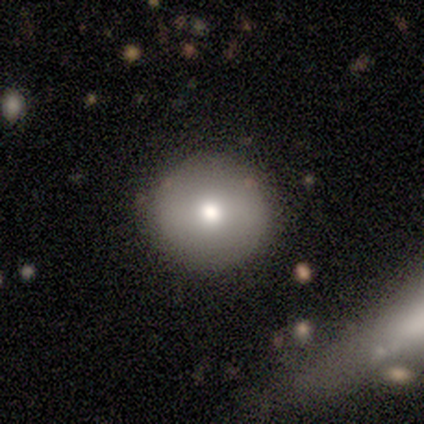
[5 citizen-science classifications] Q: Smooth or featured?
A: smooth (100%)
Q: How rounded?
A: round (100%)
Q: Merging?
A: none (100%)